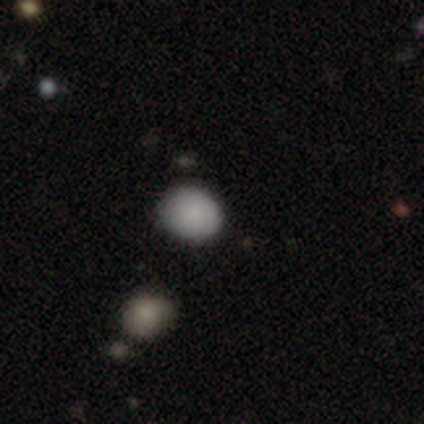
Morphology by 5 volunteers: Q: Smooth or featured?
A: smooth (80%); runner-up: star or artifact (20%)
Q: How rounded?
A: round (75%); runner-up: in between (25%)
Q: Merging?
A: none (100%)